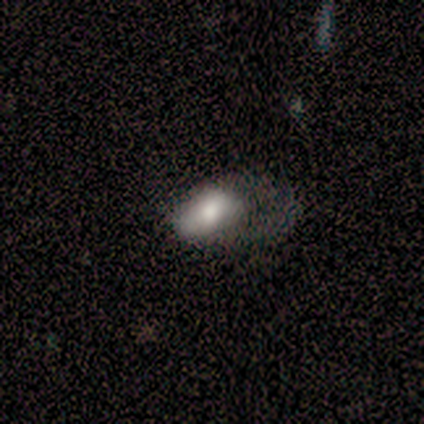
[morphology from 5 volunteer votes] This is likely a smooth galaxy (60%). How rounded: clearly in between (100%). Merging: clearly major disturbance (80%).